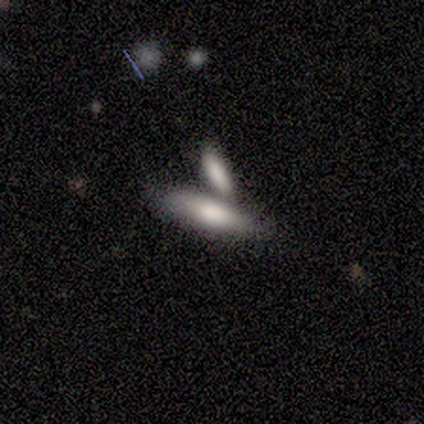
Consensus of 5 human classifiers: smooth_or_featured: smooth (p=0.80) [alt: featured or disk p=0.20]
how_rounded: in between (p=0.50) [tied with: cigar-shaped p=0.50]
merging: merger (p=0.80) [alt: none p=0.20]